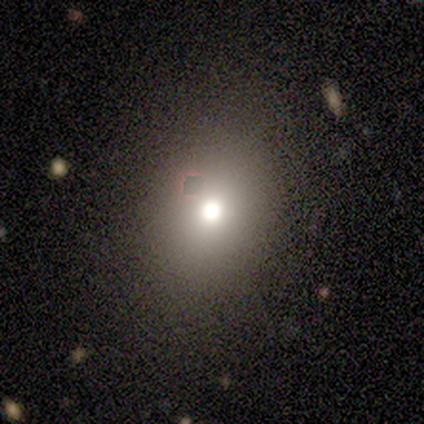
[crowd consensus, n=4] This is likely a smooth galaxy (75%). How rounded: clearly round (100%). Merging: clearly none (100%).